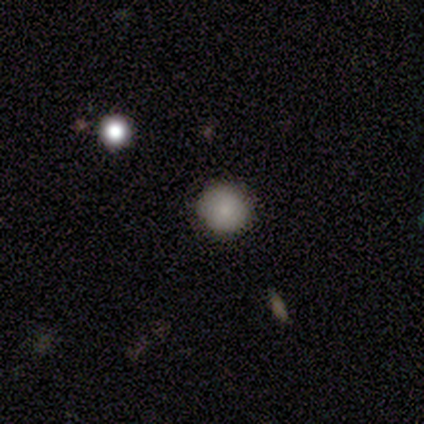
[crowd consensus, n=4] A smooth galaxy with no disk features (100%) that is round (100%).

Vote fractions:
- Smooth or featured? smooth: 100% / featured or disk: 0% / star or artifact: 0%
- How rounded? round: 100% / in between: 0% / cigar-shaped: 0%
- Merging? none: 75% / major disturbance: 25% / minor disturbance: 0% / merger: 0%